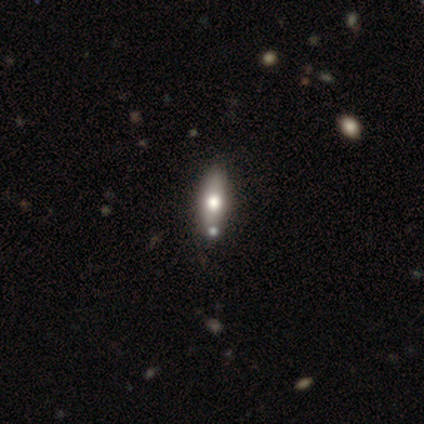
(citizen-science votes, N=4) This appears to be a featured or disk galaxy (75%) viewed edge-on (67%) with a rounded central bulge (100%). Merging: none (100%).